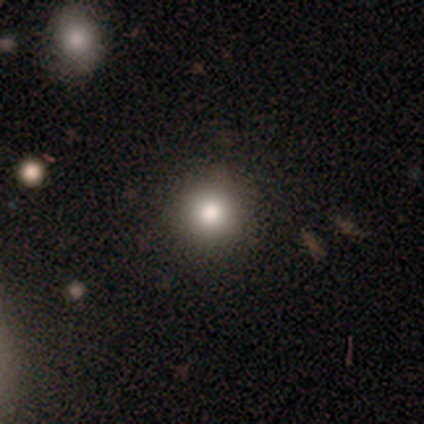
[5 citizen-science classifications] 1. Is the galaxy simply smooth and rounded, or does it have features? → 100% smooth, 0% featured or disk, 0% star or artifact.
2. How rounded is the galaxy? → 100% round, 0% in between, 0% cigar-shaped.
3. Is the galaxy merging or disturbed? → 100% none, 0% minor disturbance, 0% major disturbance, 0% merger.